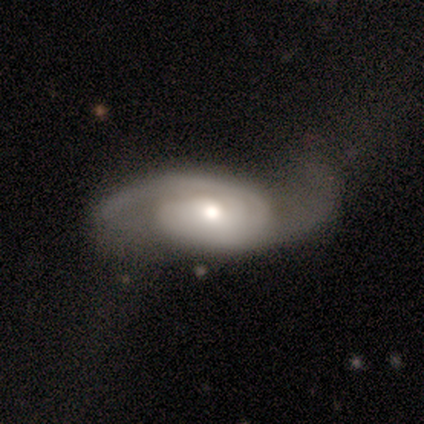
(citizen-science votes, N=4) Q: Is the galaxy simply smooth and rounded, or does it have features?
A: featured or disk — 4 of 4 (100%).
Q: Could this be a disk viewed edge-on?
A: no — 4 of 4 (100%).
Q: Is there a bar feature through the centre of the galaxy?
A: no — 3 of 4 (75%).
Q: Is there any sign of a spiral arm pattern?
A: yes — 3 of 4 (75%).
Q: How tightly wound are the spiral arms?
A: medium — 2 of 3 (67%).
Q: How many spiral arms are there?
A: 2 — 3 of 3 (100%).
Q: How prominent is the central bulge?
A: large — 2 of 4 (50%, tied with moderate).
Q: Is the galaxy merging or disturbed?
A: none — 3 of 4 (75%).